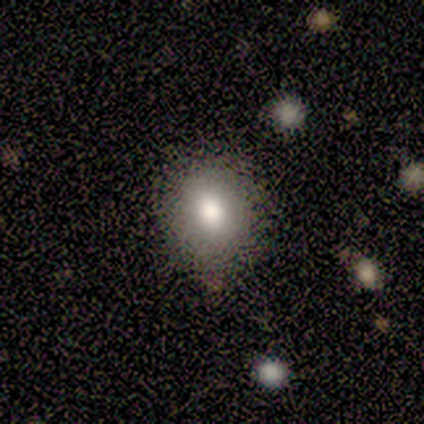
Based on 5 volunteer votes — This appears to be a smooth galaxy with no disk features (100%) that is round (100%). Merging: none (80%).